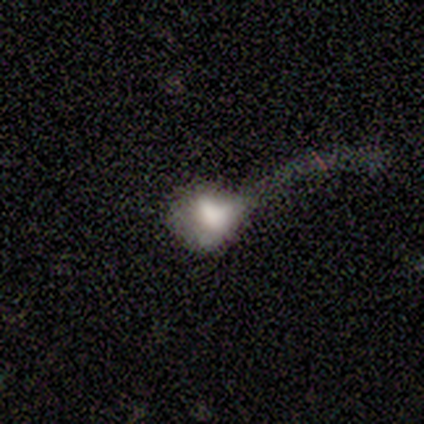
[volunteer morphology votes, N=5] smooth 40% (tied), featured or disk 40% (tied), star or artifact 20%. Down the decision tree: how rounded — in between (100%); merging — major disturbance (75%).